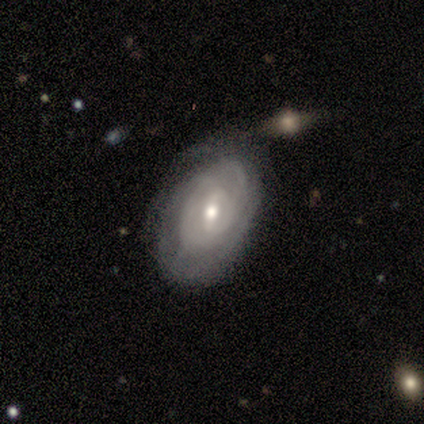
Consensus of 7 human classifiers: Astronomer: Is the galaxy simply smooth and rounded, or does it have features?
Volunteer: featured or disk — 86%.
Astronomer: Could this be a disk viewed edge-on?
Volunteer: no — 100%.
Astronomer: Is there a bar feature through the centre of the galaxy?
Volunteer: strong — 33%, tied with weak and no at 33%.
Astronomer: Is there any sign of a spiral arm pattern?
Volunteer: yes — 100%.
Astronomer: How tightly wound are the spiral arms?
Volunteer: tight — 83%.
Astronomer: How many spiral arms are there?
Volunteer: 3 — 50%, tied with can't tell at 50%.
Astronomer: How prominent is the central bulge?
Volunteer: moderate — 50%, tied with small at 50%.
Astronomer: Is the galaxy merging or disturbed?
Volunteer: none — 57% (runner-up: minor disturbance, 43%).